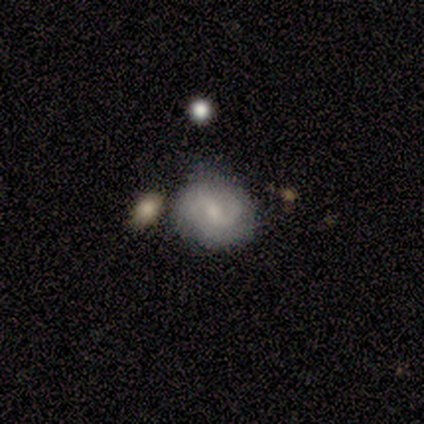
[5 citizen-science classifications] Smooth or featured?
  - smooth: 60% *
  - featured or disk: 40%
  - star or artifact: 0%
How rounded?
  - round: 67% *
  - in between: 33%
  - cigar-shaped: 0%
Merging?
  - minor disturbance: 80% *
  - major disturbance: 20%
  - none: 0%
  - merger: 0%